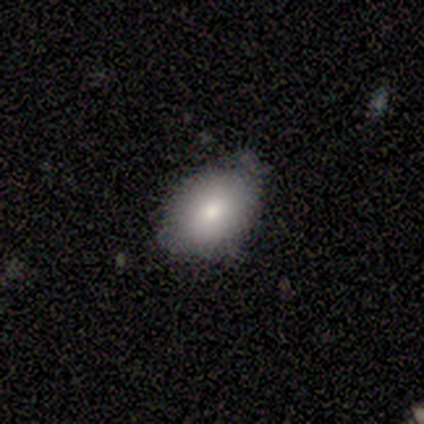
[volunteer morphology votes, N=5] Q: Smooth or featured?
A: smooth (80%); runner-up: featured or disk (20%)
Q: How rounded?
A: in between (100%)
Q: Merging?
A: none (80%); runner-up: minor disturbance (20%)